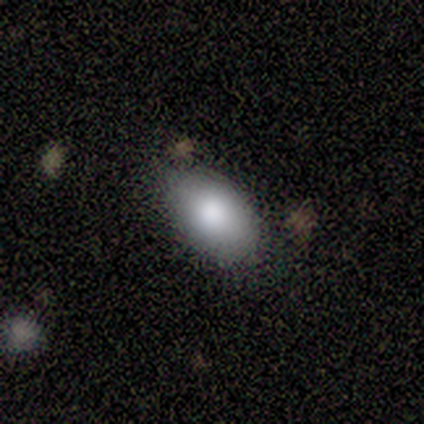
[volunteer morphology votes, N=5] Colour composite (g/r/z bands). It shows a smooth galaxy with no disk features (80%) that is in between round and cigar-shaped (100%). Merging: minor disturbance (60%).